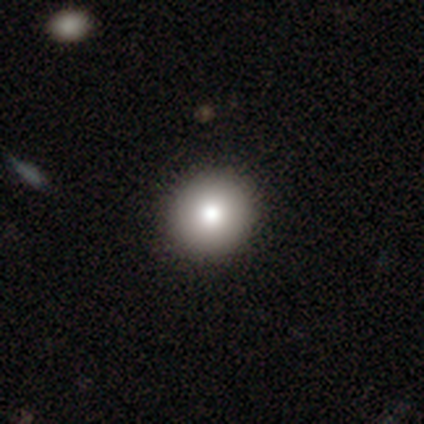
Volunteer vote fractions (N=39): smooth_or_featured: smooth (p=0.90) [alt: star or artifact p=0.08]
how_rounded: round (p=0.94) [alt: in between p=0.06]
merging: none (p=0.53) [alt: minor disturbance p=0.03]